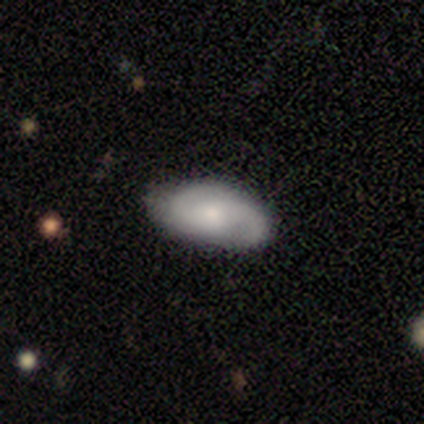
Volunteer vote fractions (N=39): Smooth or featured? featured or disk (69%)
Edge-on disk? no (100%)
Bar? no (59%)
Spiral arms? yes (100%)
Spiral winding? medium (56%)
Spiral arm count? 2 (96%)
Bulge size? moderate (56%)
Merging? none (59%)